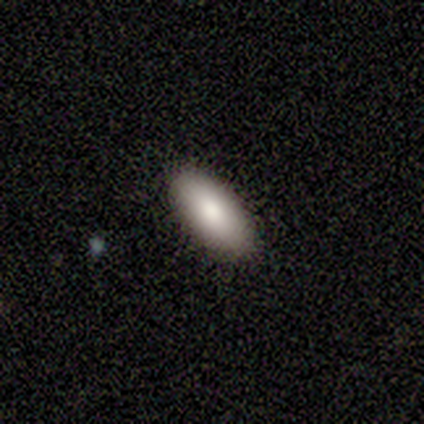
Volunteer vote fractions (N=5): Smooth or featured? 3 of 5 (60%) said smooth. How rounded? 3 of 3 (100%) said in between. Merging? 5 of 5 (100%) said none.